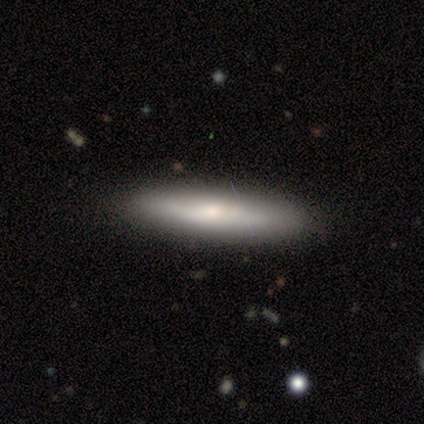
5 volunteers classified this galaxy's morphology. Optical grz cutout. It shows a smooth galaxy with no disk features (80%) that is cigar-shaped (75%). Merging: none (100%).